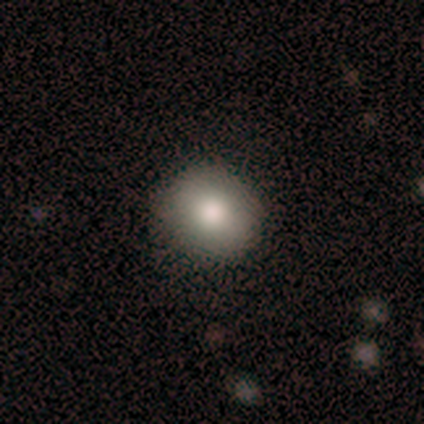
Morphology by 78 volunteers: Q: Smooth or featured?
A: smooth (83%); runner-up: star or artifact (9%)
Q: How rounded?
A: round (75%); runner-up: in between (25%)
Q: Merging?
A: none (49%); runner-up: minor disturbance (3%)